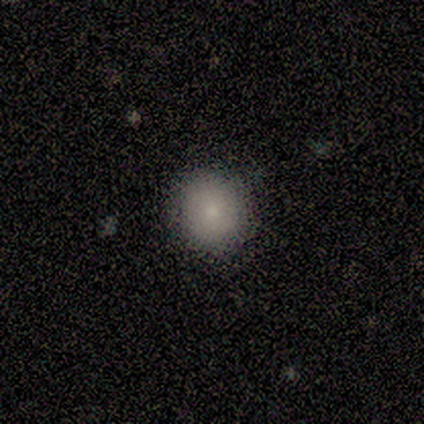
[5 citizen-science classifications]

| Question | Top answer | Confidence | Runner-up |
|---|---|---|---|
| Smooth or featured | smooth | 80% | star or artifact (20%) |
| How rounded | round | 100% | — |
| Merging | none | 100% | — |